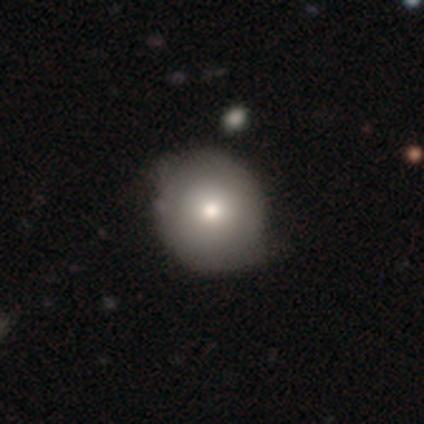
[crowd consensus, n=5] Smooth or featured: smooth — 80% (star or artifact — 20%)
How rounded: round — 50% (tied with in between — 50%)
Merging: none — 50% (tied with minor disturbance — 50%)